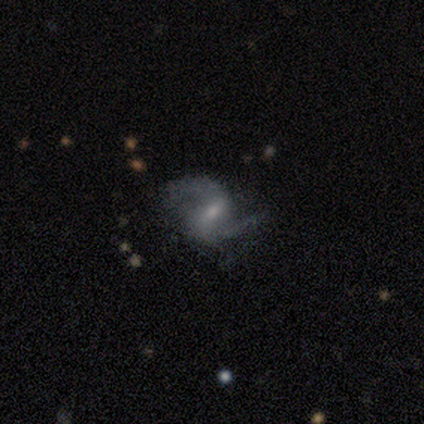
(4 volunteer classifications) This appears to be a featured or disk galaxy (100%) with a weak bar (75%), 2 (100%) loose (75%) spiral arms (100%) and a small central bulge (75%). Merging: none (75%).